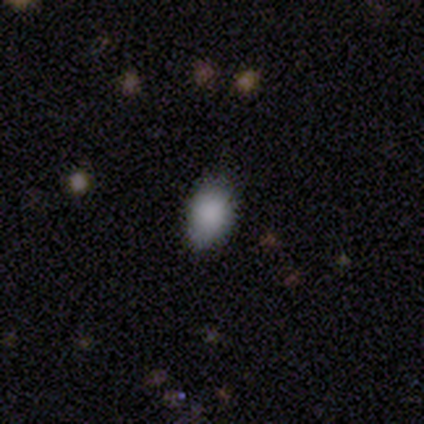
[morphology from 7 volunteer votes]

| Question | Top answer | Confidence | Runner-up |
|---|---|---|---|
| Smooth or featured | smooth | 86% | featured or disk (14%) |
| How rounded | in between | 67% | round (33%) |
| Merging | none | 86% | minor disturbance (14%) |